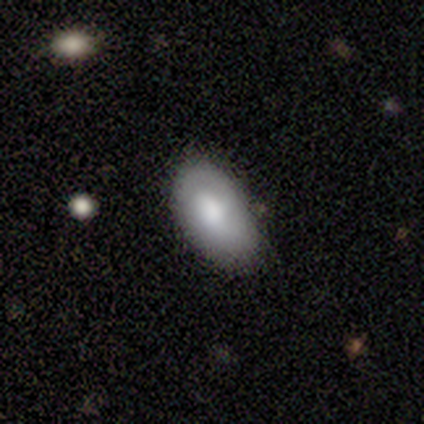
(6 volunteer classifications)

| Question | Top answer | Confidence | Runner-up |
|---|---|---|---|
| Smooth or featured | smooth | 83% | featured or disk (17%) |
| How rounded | in between | 100% | — |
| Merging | none | 50% | tied: minor disturbance (50%) |